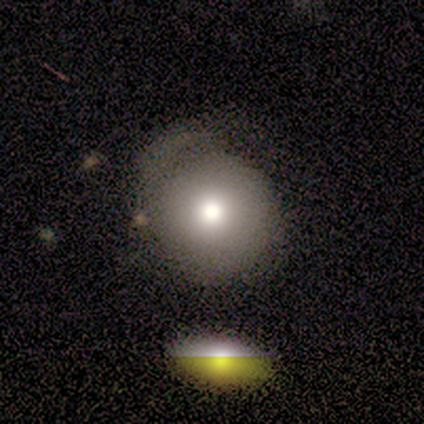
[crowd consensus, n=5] Volunteers were most divided on "smooth or featured": smooth: 60%, featured or disk: 40%, star or artifact: 0%. More confident: how rounded — round (100%); merging — none (60%).